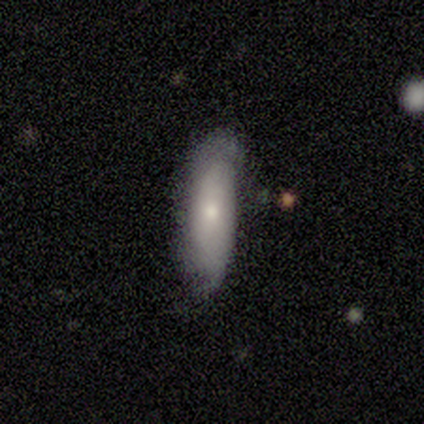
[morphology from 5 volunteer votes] Smooth or featured? 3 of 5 (60%) said smooth. How rounded? 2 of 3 (67%) said cigar-shaped. Merging? 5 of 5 (100%) said none.